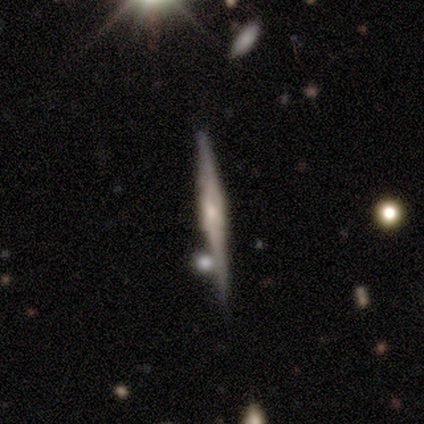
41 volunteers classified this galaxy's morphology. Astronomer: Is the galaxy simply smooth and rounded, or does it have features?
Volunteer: featured or disk — 80%.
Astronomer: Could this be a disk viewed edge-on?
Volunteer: yes — 97%.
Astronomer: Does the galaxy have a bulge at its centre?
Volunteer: rounded — 69%.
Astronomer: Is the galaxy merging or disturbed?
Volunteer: none — 80%.